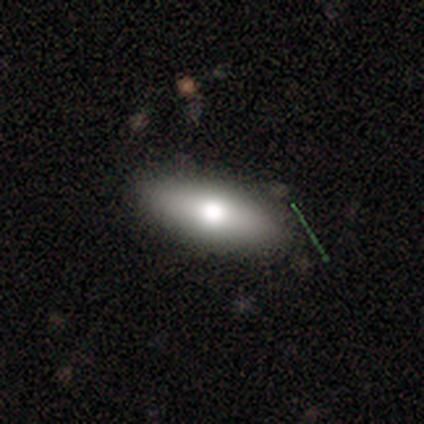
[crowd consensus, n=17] Smooth or featured: smooth — 53% (featured or disk — 35%)
How rounded: in between — 67% (cigar-shaped — 33%)
Merging: none — 73% (minor disturbance — 20%)